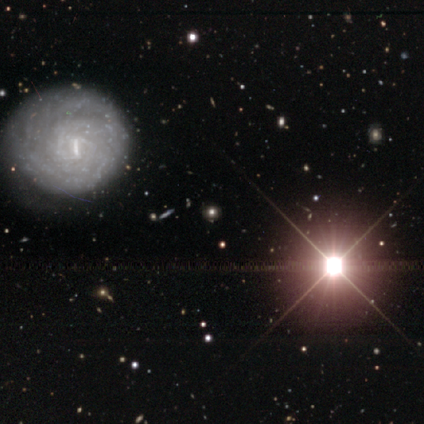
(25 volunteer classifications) Overall: featured or disk (44%; star or artifact 32%). Edge-on disk: no (100%). Bar: weak (36%, tied with no). Spiral arms: yes (64%; no 36%). Spiral arm count: can't tell (71%). Spiral winding: tight (86%). Bulge size: none (45%; large 18%). Merging: none (82%).